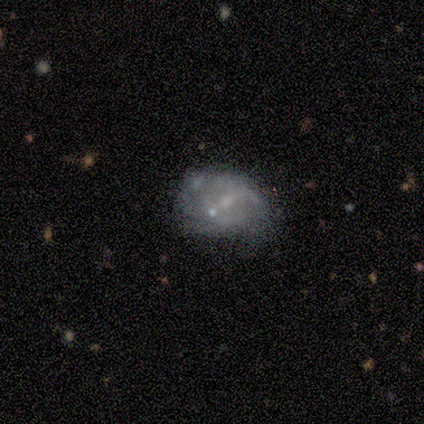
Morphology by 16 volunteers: smooth_or_featured: featured or disk (p=0.50) [alt: smooth p=0.38]
disk_edge_on: no (p=0.88) [alt: yes p=0.12]
bar: no (p=0.57) [alt: weak p=0.43]
has_spiral_arms: yes (p=0.71) [alt: no p=0.29]
spiral_winding: tight (p=0.40) [tied with: loose p=0.40]
spiral_arm_count: can't tell (p=0.80) [alt: 2 p=0.20]
bulge_size: small (p=1.00)
merging: none (p=0.50) [alt: minor disturbance p=0.21]